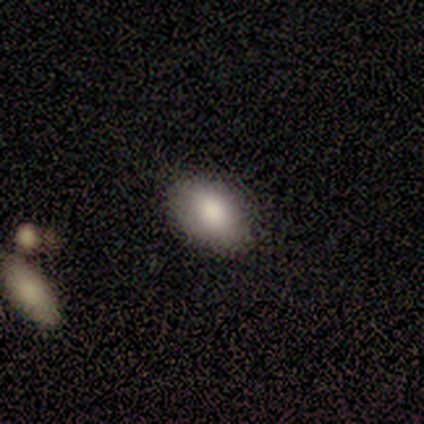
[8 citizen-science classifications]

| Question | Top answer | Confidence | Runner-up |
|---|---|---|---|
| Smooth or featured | smooth | 75% | featured or disk (12%) |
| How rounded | in between | 83% | round (17%) |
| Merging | none | 86% | minor disturbance (14%) |